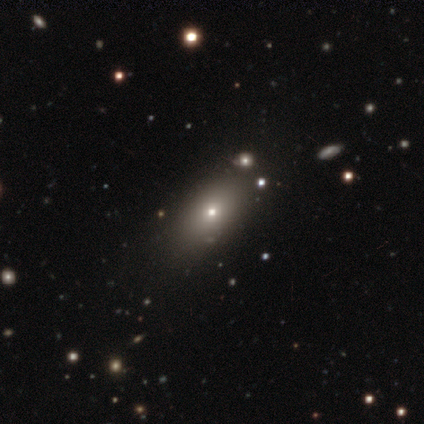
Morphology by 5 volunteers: A smooth galaxy with no disk features (40%, tied with featured or disk) that is in between round and cigar-shaped (100%).

Vote fractions:
- Smooth or featured? smooth: 40% (tied) / featured or disk: 40% (tied) / star or artifact: 20%
- How rounded? in between: 100% / round: 0% / cigar-shaped: 0%
- Merging? none: 75% / minor disturbance: 25% / major disturbance: 0% / merger: 0%